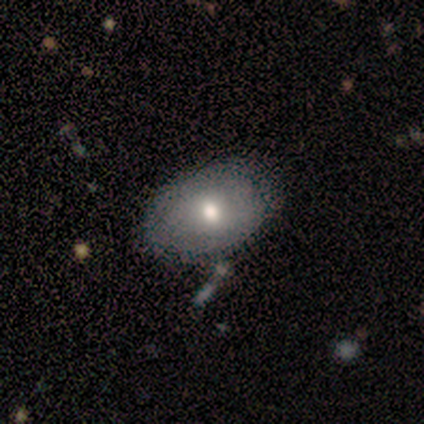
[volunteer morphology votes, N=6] A smooth galaxy with no disk features (50%, tied with featured or disk) that is in between round and cigar-shaped (100%). Merging: none (83%).